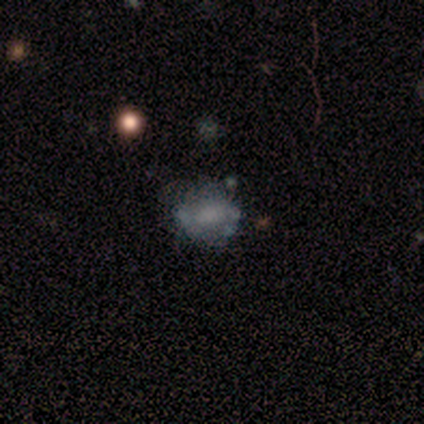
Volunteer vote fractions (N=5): A featured or disk galaxy (40%, tied with star or artifact) with a weak bar (50%, tied with no), no spiral arms (100%) and a moderate central bulge (50%, tied with none).

Vote fractions:
- Smooth or featured? featured or disk: 40% (tied) / star or artifact: 40% (tied) / smooth: 20%
- Edge-on disk? no: 100% / yes: 0%
- Bar? weak: 50% (tied) / no: 50% (tied) / strong: 0%
- Spiral arms? no: 100% / yes: 0%
- Bulge size? moderate: 50% (tied) / none: 50% (tied) / dominant: 0% / large: 0% / small: 0%
- Merging? none: 67% / minor disturbance: 33% / major disturbance: 0% / merger: 0%